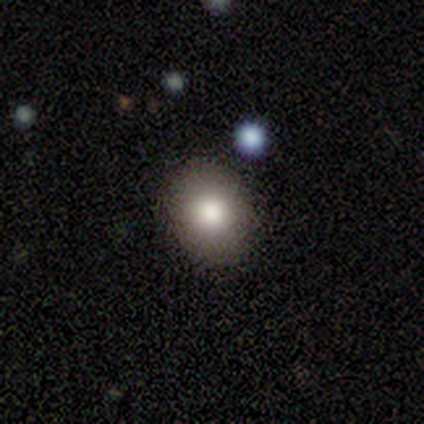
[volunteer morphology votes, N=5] This is clearly a smooth galaxy (100%). How rounded: likely round (60%). Merging: clearly none (100%).